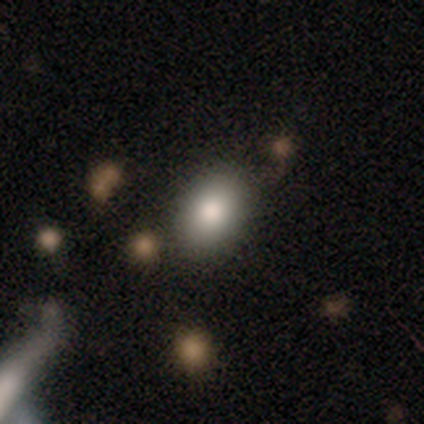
Smooth or featured? 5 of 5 (100%) said smooth. How rounded? 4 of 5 (80%) said in between. Merging? 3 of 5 (60%) said none.